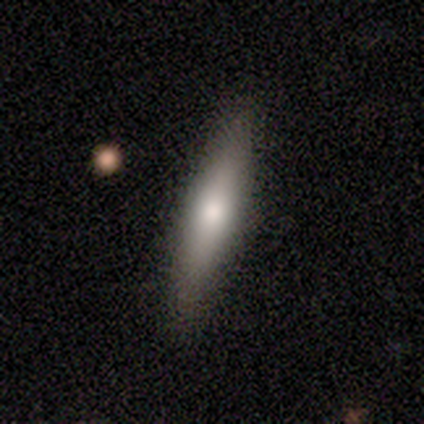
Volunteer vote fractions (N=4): Smooth or featured? smooth (75%)
How rounded? cigar-shaped (100%)
Merging? none (67%)